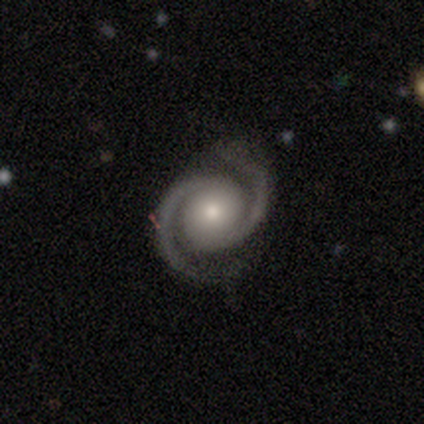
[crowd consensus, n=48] A featured or disk galaxy (90%) with no bar (77%), 2 (98%) tight (45%, tied with medium) spiral arms (98%) and a moderate central bulge (51%).

Vote fractions:
- Smooth or featured? featured or disk: 90% / star or artifact: 8% / smooth: 2%
- Edge-on disk? no: 100% / yes: 0%
- Bar? no: 77% / weak: 14% / strong: 9%
- Spiral arms? yes: 98% / no: 2%
- Spiral winding? tight: 45% (tied) / medium: 45% (tied) / loose: 10%
- Spiral arm count? 2: 98% / 3: 2% / 1: 0% / 4: 0% / more than 4: 0% / can't tell: 0%
- Bulge size? moderate: 51% / small: 42% / large: 7% / dominant: 0% / none: 0%
- Merging? none: 89% / minor disturbance: 7% / major disturbance: 2% / merger: 2%